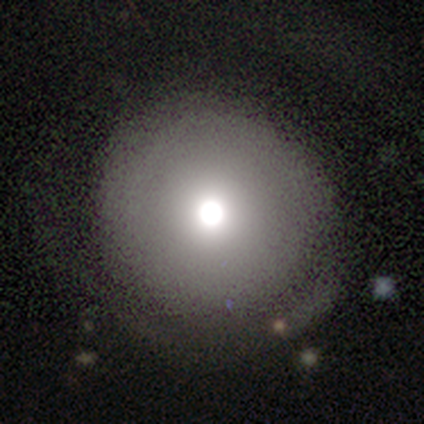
This appears to be a smooth galaxy with no disk features (80%) that is round (100%). Merging: none (60%).